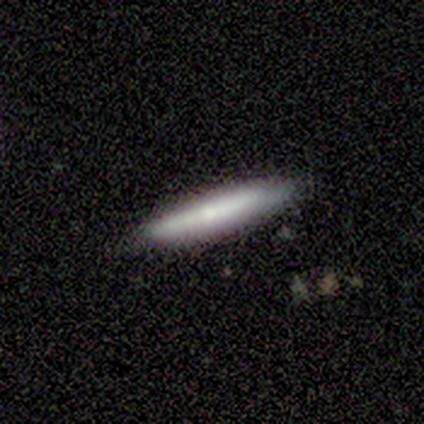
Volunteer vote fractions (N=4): Smooth or featured?
  - smooth: 100% *
  - featured or disk: 0%
  - star or artifact: 0%
How rounded?
  - cigar-shaped: 100% *
  - round: 0%
  - in between: 0%
Merging?
  - none: 100% *
  - minor disturbance: 0%
  - major disturbance: 0%
  - merger: 0%